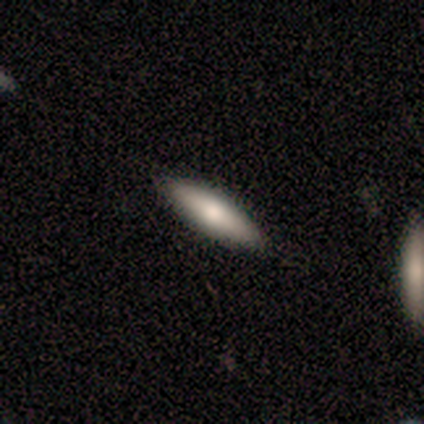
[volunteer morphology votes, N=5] Smooth or featured?
  - smooth: 100% *
  - featured or disk: 0%
  - star or artifact: 0%
How rounded?
  - cigar-shaped: 60% *
  - in between: 40%
  - round: 0%
Merging?
  - none: 80% *
  - minor disturbance: 20%
  - major disturbance: 0%
  - merger: 0%